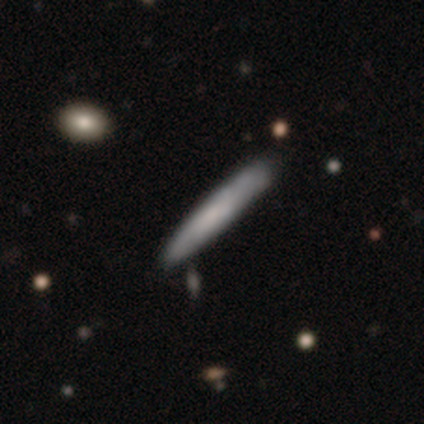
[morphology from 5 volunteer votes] This appears to be a smooth galaxy with no disk features (80%) that is cigar-shaped (100%). Merging: none (100%).